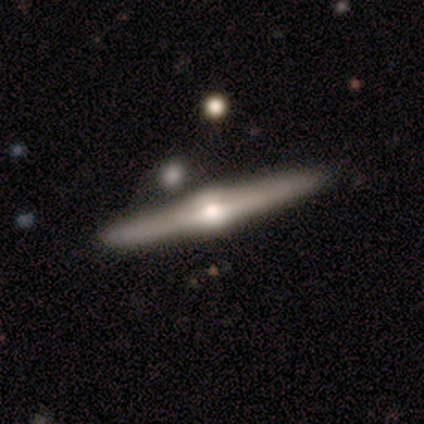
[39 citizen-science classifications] Smooth or featured? featured or disk (92%)
Edge-on disk? yes (100%)
Edge-on bulge? rounded (100%)
Merging? none (64%)